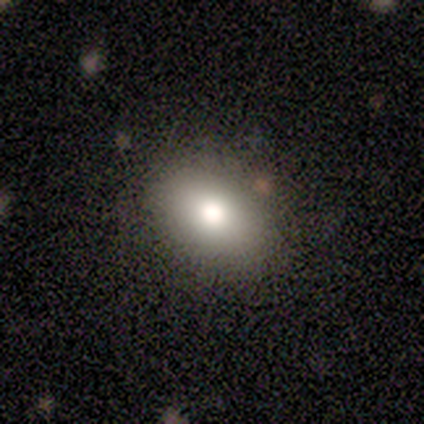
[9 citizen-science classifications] This is clearly a smooth galaxy (100%). How rounded: clearly in between (89%). Merging: clearly none (89%).